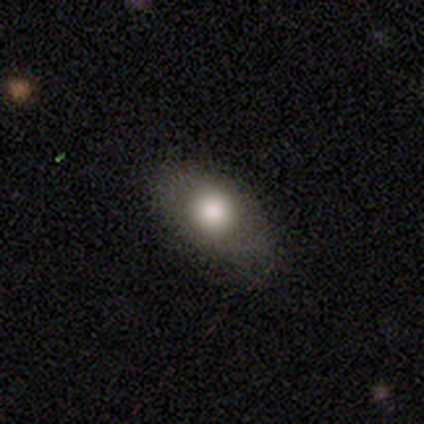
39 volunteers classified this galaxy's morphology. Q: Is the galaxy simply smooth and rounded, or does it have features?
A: smooth — 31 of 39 (79%).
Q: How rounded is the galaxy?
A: in between — 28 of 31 (90%).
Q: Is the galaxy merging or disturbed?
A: none — 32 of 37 (86%).